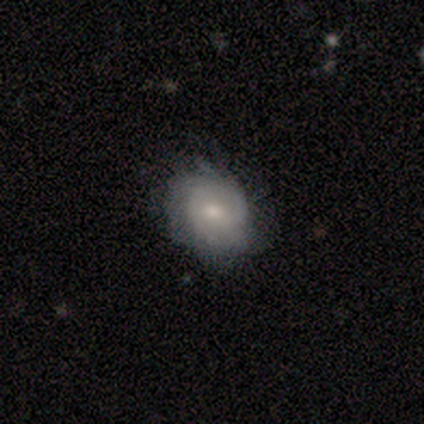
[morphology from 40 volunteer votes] This appears to be a featured or disk galaxy (57%) with no bar (82%), tight (63%) spiral arms (86%) and a small central bulge (59%). Merging: none (62%).